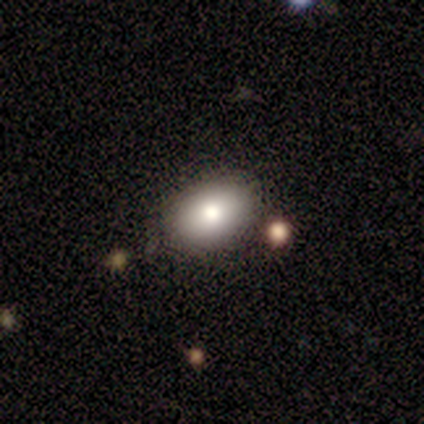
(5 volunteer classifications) A smooth galaxy with no disk features (80%) that is in between round and cigar-shaped (75%).

Vote fractions:
- Smooth or featured? smooth: 80% / featured or disk: 20% / star or artifact: 0%
- How rounded? in between: 75% / round: 25% / cigar-shaped: 0%
- Merging? none: 80% / minor disturbance: 20% / major disturbance: 0% / merger: 0%